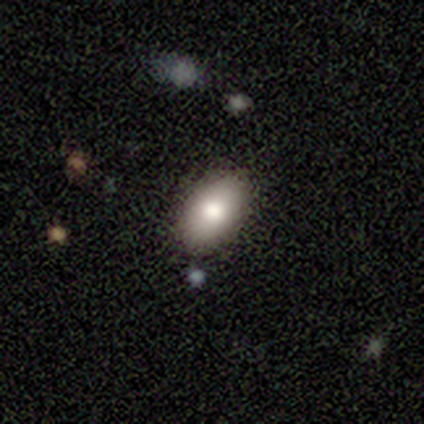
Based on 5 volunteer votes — This appears to be a smooth galaxy with no disk features (80%) that is in between round and cigar-shaped (100%). Merging: none (100%).